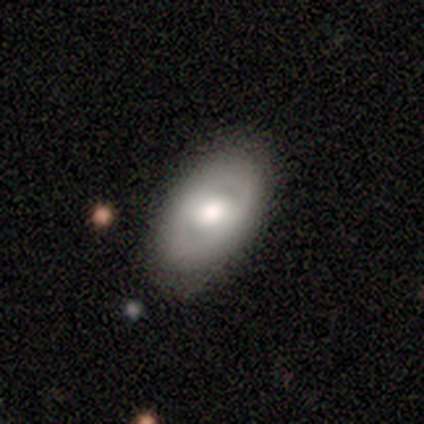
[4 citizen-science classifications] Smooth or featured? smooth (50%, tied with featured or disk)
How rounded? in between (100%)
Merging? none (100%)